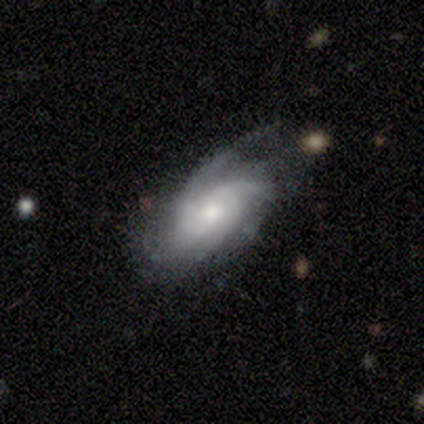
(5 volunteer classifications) A featured or disk galaxy (100%) with no bar (80%), medium (80%) spiral arms (100%) and a moderate central bulge (40%, tied with small).

Vote fractions:
- Smooth or featured? featured or disk: 100% / smooth: 0% / star or artifact: 0%
- Edge-on disk? no: 100% / yes: 0%
- Bar? no: 80% / weak: 20% / strong: 0%
- Spiral arms? yes: 100% / no: 0%
- Spiral winding? medium: 80% / loose: 20% / tight: 0%
- Spiral arm count? can't tell: 60% / 3: 40% / 1: 0% / 2: 0% / 4: 0% / more than 4: 0%
- Bulge size? moderate: 40% (tied) / small: 40% (tied) / large: 20% / dominant: 0% / none: 0%
- Merging? none: 60% / minor disturbance: 20% / major disturbance: 20% / merger: 0%